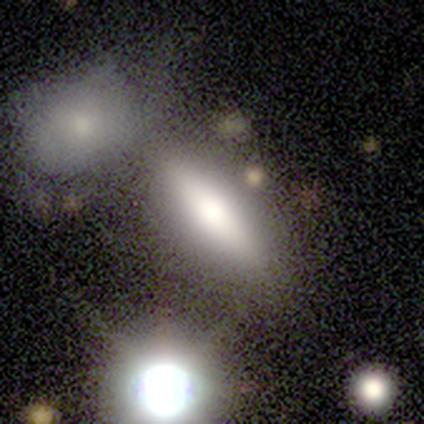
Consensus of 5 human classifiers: Overall: smooth (60%; featured or disk 20%). How rounded: in between (100%). Merging: none (50%, tied with merger).